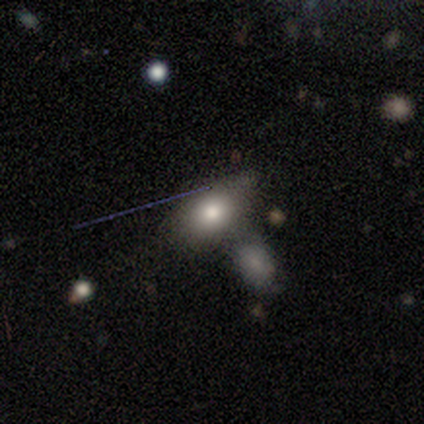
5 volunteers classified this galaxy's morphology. smooth-or-featured: smooth: 60% | featured or disk: 40% | star or artifact: 0%
  how-rounded: in between: 100% | round: 0% | cigar-shaped: 0%
  merging: minor disturbance: 60% | none: 20% | merger: 20% | major disturbance: 0%